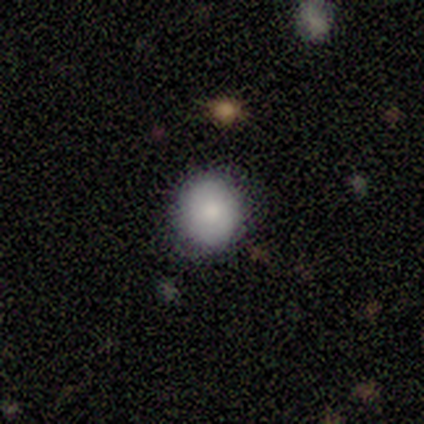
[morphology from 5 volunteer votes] Smooth or featured?
  - smooth: 100% *
  - featured or disk: 0%
  - star or artifact: 0%
How rounded?
  - round: 100% *
  - in between: 0%
  - cigar-shaped: 0%
Merging?
  - none: 80% *
  - minor disturbance: 20%
  - major disturbance: 0%
  - merger: 0%